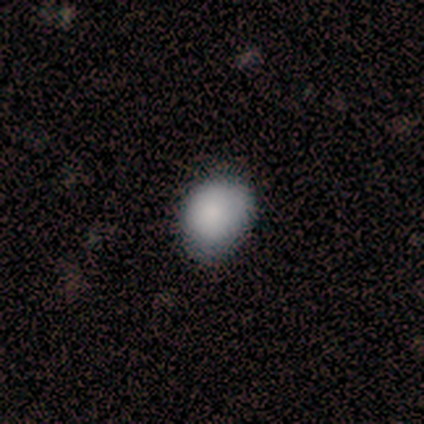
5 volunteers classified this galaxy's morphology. This appears to be a smooth galaxy with no disk features (100%) that is round (80%). Merging: none (80%).